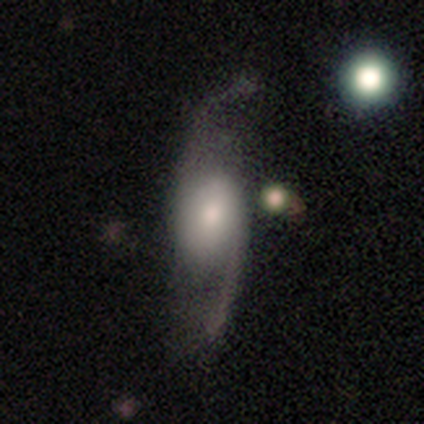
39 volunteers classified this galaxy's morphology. featured or disk 77%, smooth 13%, star or artifact 10%. Down the decision tree: edge-on disk — no (93%); bar — no (54%); spiral arms — yes (100%); spiral arm count — 2 (100%); spiral winding — loose (79%); bulge size — moderate (39%); merging — none (46%).